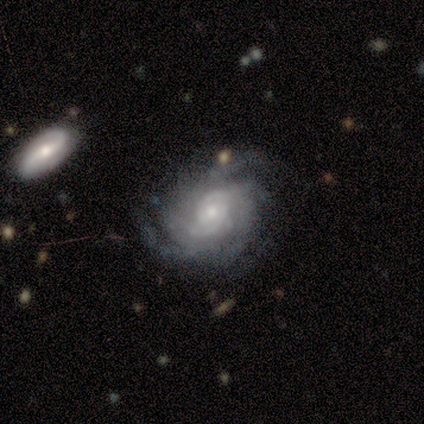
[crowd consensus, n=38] A featured or disk galaxy (92%) with no bar (80%), tight (64%) spiral arms (94%) and a small central bulge (69%). Merging: none (67%).